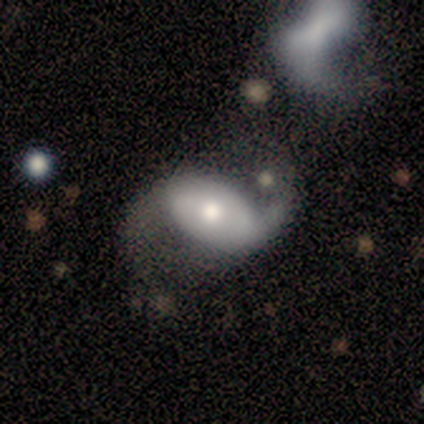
Smooth or featured?
  - featured or disk: 76% *
  - smooth: 24%
  - star or artifact: 0%
Edge-on disk?
  - no: 83% *
  - yes: 17%
Bar?
  - no: 50% *
  - strong: 33%
  - weak: 17%
Spiral arms?
  - yes: 96% *
  - no: 4%
Spiral winding?
  - loose: 96% *
  - medium: 4%
  - tight: 0%
Spiral arm count?
  - 2: 78% *
  - 1: 17%
  - can't tell: 4%
  - 3: 0%
  - 4: 0%
  - more than 4: 0%
Bulge size?
  - moderate: 62% *
  - small: 21%
  - large: 12%
  - dominant: 4%
  - none: 0%
Merging?
  - none: 39% *
  - major disturbance: 26%
  - merger: 18%
  - minor disturbance: 16%